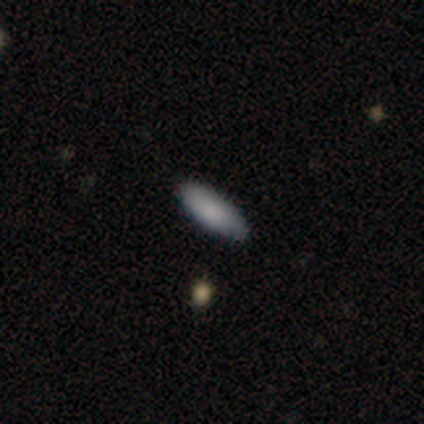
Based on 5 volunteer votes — smooth 100%, featured or disk 0%, star or artifact 0%. Down the decision tree: how rounded — in between (60%); merging — none (80%).